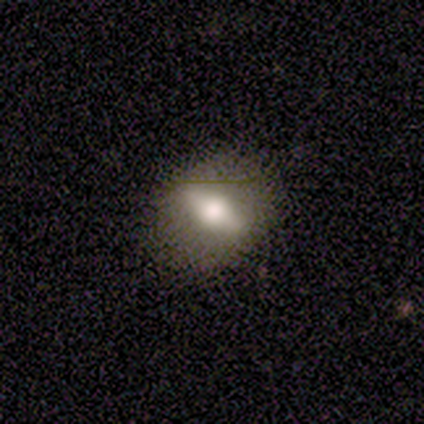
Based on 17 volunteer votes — smooth-or-featured: featured or disk: 65% | smooth: 29% | star or artifact: 6%
  disk-edge-on: yes: 55% | no: 45%
    edge-on-bulge: rounded: 83% | boxy: 17% | none: 0%
  merging: none: 88% | minor disturbance: 6% | major disturbance: 6% | merger: 0%